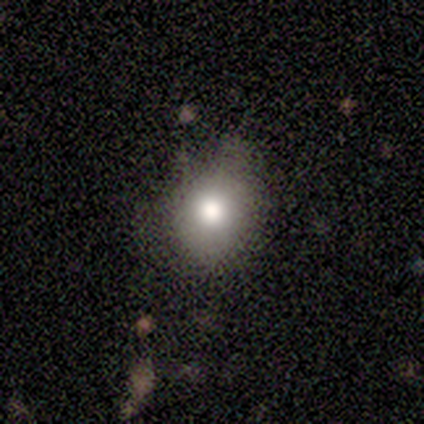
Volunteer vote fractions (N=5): Volunteers were most divided on "how rounded": in between: 60%, round: 40%, cigar-shaped: 0%. More confident: smooth or featured — smooth (100%); merging — minor disturbance (60%).